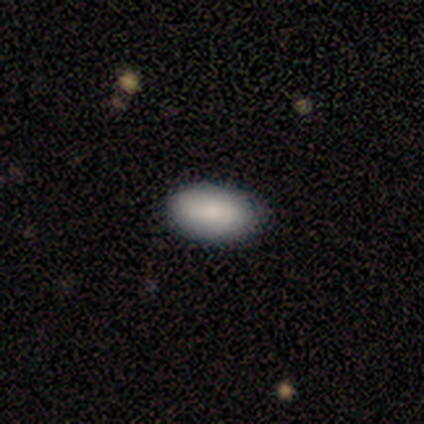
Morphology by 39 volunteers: smooth-or-featured: smooth: 77% | star or artifact: 18% | featured or disk: 5%
  how-rounded: in between: 97% | round: 3% | cigar-shaped: 0%
  merging: none: 97% | minor disturbance: 3% | major disturbance: 0% | merger: 0%